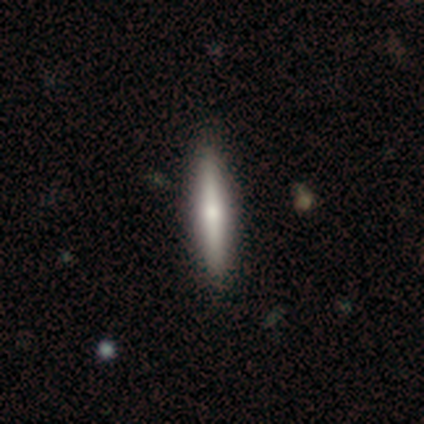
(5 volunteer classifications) Morphology: type=smooth (60%); roundness=cigar-shaped (100%); merging=none (100%).